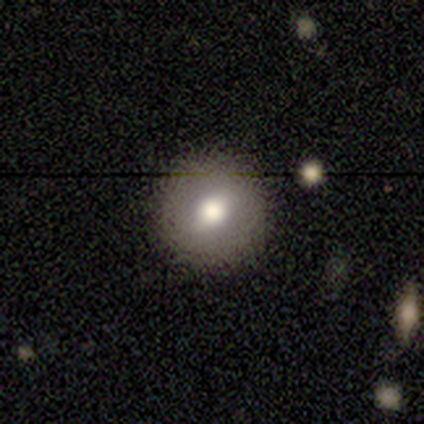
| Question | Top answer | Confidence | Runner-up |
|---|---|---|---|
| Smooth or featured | smooth | 61% | featured or disk (32%) |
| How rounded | round | 91% | in between (9%) |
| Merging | none | 89% | minor disturbance (6%) |